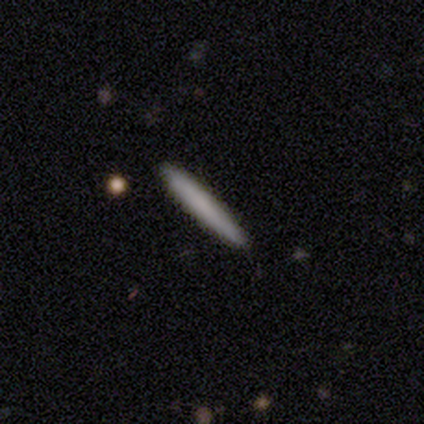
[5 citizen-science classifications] A smooth galaxy with no disk features (60%) that is cigar-shaped (100%). Merging: none (80%).